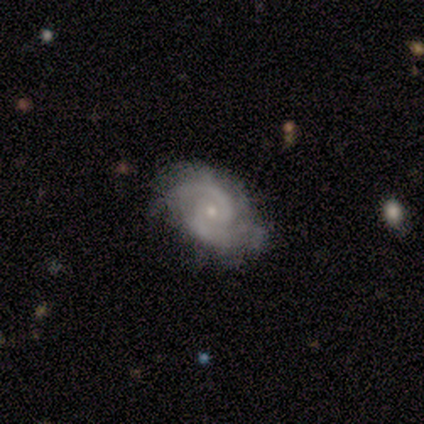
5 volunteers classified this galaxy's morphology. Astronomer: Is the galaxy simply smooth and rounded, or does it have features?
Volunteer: featured or disk — 100%.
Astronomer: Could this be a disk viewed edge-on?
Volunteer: no — 100%.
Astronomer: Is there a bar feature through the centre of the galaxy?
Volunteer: no — 60% (runner-up: weak, 40%).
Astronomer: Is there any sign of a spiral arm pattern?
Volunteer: yes — 100%.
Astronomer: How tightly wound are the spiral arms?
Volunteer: medium — 60% (runner-up: tight, 40%).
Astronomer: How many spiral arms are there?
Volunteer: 2 — 80%.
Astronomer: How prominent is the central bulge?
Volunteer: small — 80%.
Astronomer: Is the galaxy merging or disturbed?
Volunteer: none — 80%.